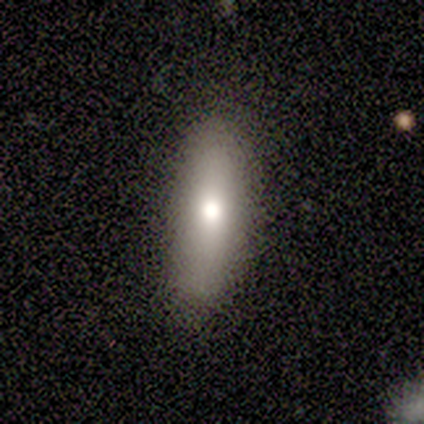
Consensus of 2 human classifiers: Morphology: type=smooth (100%); roundness=round (50%, tied with cigar-shaped); merging=none (100%).